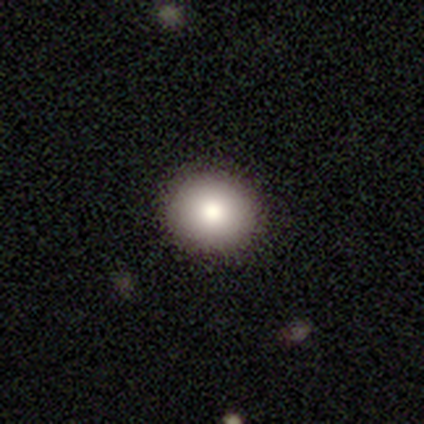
Smooth or featured?
  - smooth: 82% *
  - featured or disk: 11%
  - star or artifact: 8%
How rounded?
  - round: 90% *
  - in between: 10%
  - cigar-shaped: 0%
Merging?
  - none: 100% *
  - minor disturbance: 0%
  - major disturbance: 0%
  - merger: 0%